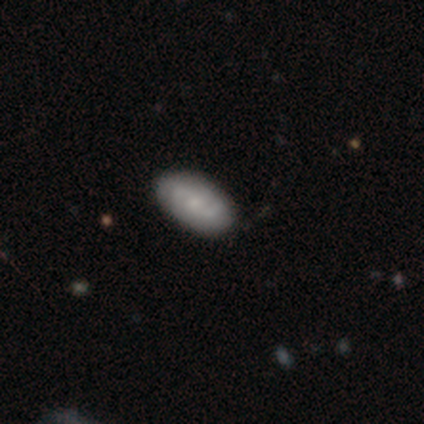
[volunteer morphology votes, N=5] This appears to be a featured or disk galaxy (60%) with no bar (67%), tight (50%, tied with medium) spiral arms (67%) and a moderate central bulge (33%, tied with small and none). Merging: none (75%).